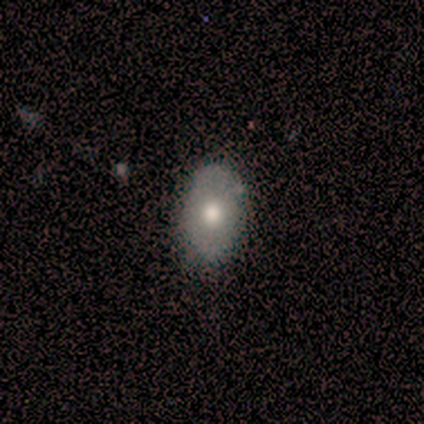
Q: Smooth or featured?
A: smooth (80%); runner-up: featured or disk (20%)
Q: How rounded?
A: in between (100%)
Q: Merging?
A: none (60%); runner-up: minor disturbance (40%)